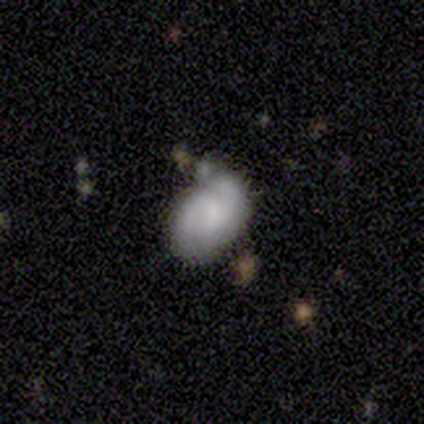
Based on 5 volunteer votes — Smooth or featured: featured or disk — 100%
Edge-on disk: no — 100%
Bar: no — 60% (weak — 40%)
Spiral arms: yes — 80% (no — 20%)
Spiral winding: tight — 50% (tied with medium — 50%)
Spiral arm count: 2 — 75% (3 — 25%)
Bulge size: small — 60% (none — 40%)
Merging: none — 80% (minor disturbance — 20%)